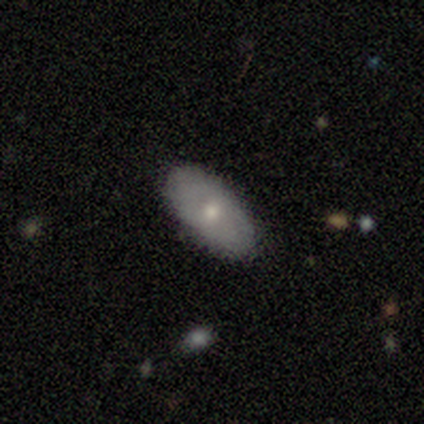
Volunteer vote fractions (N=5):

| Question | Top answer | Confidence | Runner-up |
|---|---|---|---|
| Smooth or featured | smooth | 100% | — |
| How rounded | in between | 100% | — |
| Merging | none | 80% | major disturbance (20%) |